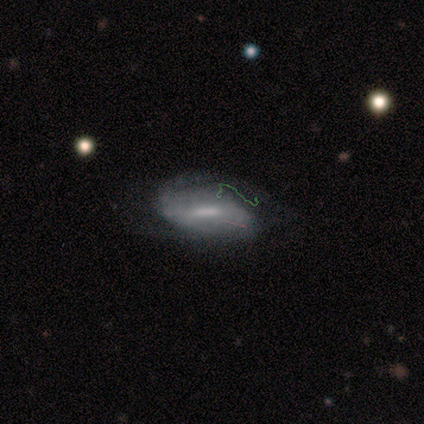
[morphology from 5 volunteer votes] This appears to be a featured or disk galaxy (80%) with a strong bar (75%), 2 (67%) medium (67%) spiral arms (75%) and a moderate central bulge (100%). Merging: none (40%, tied with minor disturbance).